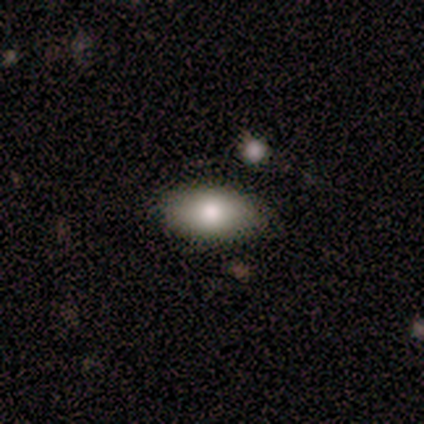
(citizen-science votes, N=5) A smooth galaxy with no disk features (80%) that is in between round and cigar-shaped (100%). Merging: none (100%).